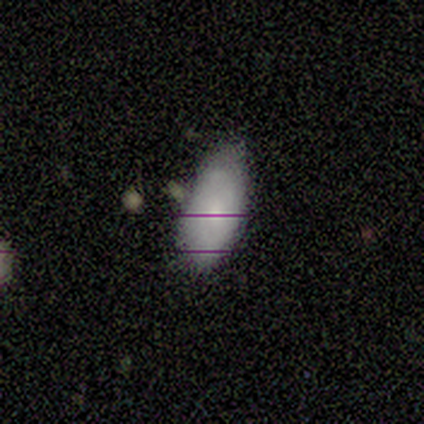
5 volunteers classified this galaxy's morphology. Q: Smooth or featured?
A: smooth (80%); runner-up: featured or disk (20%)
Q: How rounded?
A: in between (100%)
Q: Merging?
A: none (60%); runner-up: minor disturbance (40%)